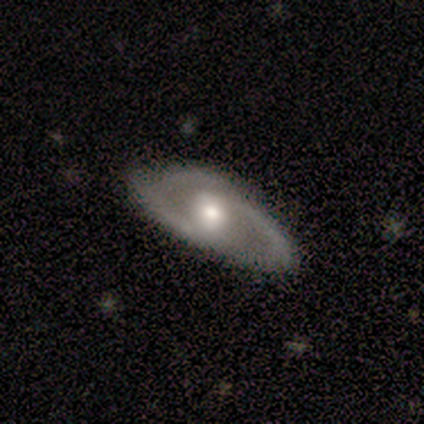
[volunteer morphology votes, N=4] Smooth or featured: featured or disk — 75% (smooth — 25%)
Edge-on disk: no — 100%
Bar: no — 67% (weak — 33%)
Spiral arms: yes — 67% (no — 33%)
Spiral winding: medium — 50% (tied with loose — 50%)
Spiral arm count: 2 — 50% (tied with 3 — 50%)
Bulge size: moderate — 67% (small — 33%)
Merging: none — 75% (minor disturbance — 25%)